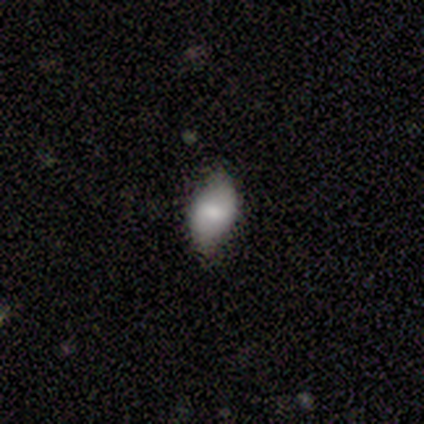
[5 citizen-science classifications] Smooth or featured?
  - featured or disk: 60% *
  - smooth: 20%
  - star or artifact: 20%
Edge-on disk?
  - no: 100% *
  - yes: 0%
Bar?
  - weak: 100% *
  - strong: 0%
  - no: 0%
Spiral arms?
  - yes: 67% *
  - no: 33%
Spiral winding?
  - loose: 100% *
  - tight: 0%
  - medium: 0%
Spiral arm count?
  - 2: 100% *
  - 1: 0%
  - 3: 0%
  - 4: 0%
  - more than 4: 0%
  - can't tell: 0%
Bulge size?
  - small: 67% *
  - moderate: 33%
  - dominant: 0%
  - large: 0%
  - none: 0%
Merging?
  - none: 100% *
  - minor disturbance: 0%
  - major disturbance: 0%
  - merger: 0%